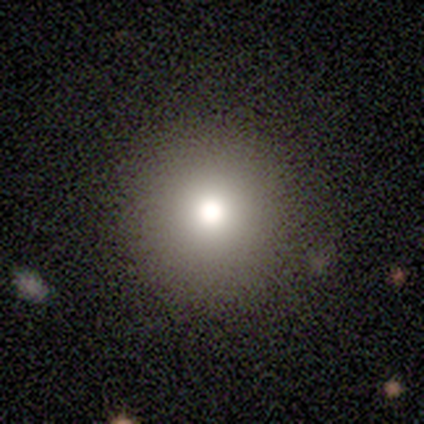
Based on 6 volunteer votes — Smooth or featured? 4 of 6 (67%) said smooth. How rounded? 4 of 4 (100%) said round. Merging? 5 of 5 (100%) said none.